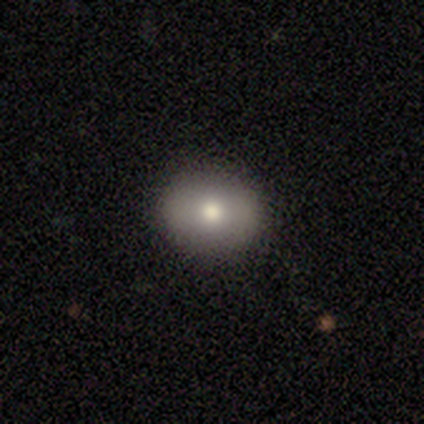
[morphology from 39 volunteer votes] Smooth or featured?
  - smooth: 79% *
  - featured or disk: 13%
  - star or artifact: 8%
How rounded?
  - in between: 55% *
  - round: 45%
  - cigar-shaped: 0%
Merging?
  - none: 92% *
  - minor disturbance: 8%
  - major disturbance: 0%
  - merger: 0%